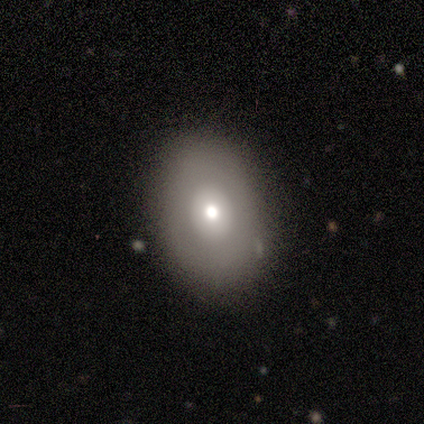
Overall: smooth (100%). How rounded: round (50%, tied with in between). Merging: none (75%).